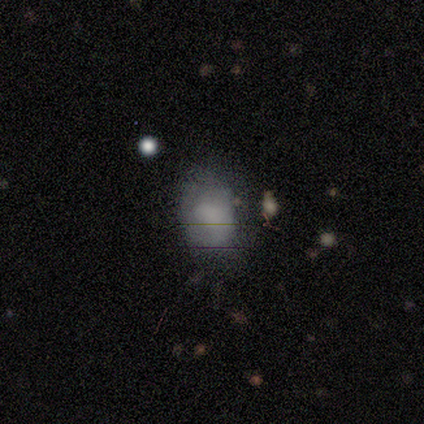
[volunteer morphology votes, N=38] Smooth or featured? 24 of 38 (63%) said smooth. How rounded? 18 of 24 (75%) said in between. Merging? 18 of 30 (60%) said none.